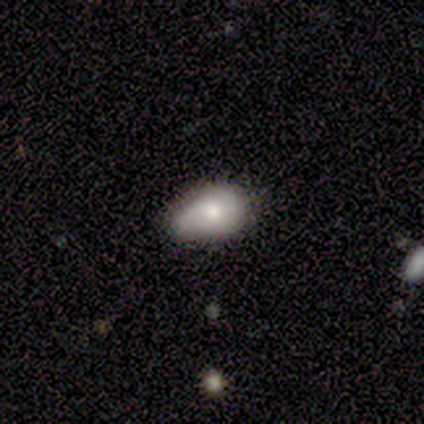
Smooth or featured? 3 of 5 (60%) said smooth. How rounded? 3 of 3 (100%) said in between. Merging? 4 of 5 (80%) said minor disturbance.